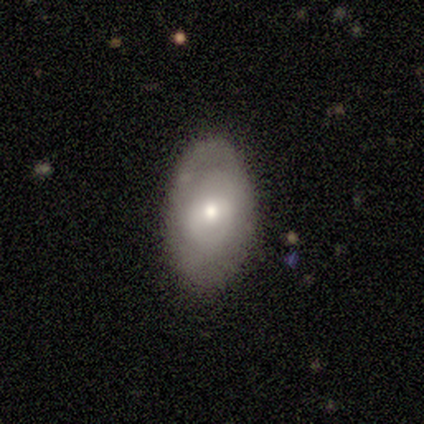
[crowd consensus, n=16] Volunteers were most divided on "merging": none: 56%, minor disturbance: 44%, major disturbance: 0%, merger: 0%. More confident: how rounded — in between (92%); smooth or featured — smooth (81%).